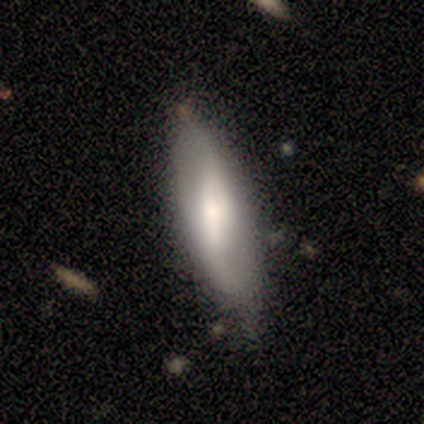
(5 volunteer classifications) Smooth or featured: smooth — 60% (featured or disk — 40%)
How rounded: cigar-shaped — 67% (in between — 33%)
Merging: none — 80% (major disturbance — 20%)